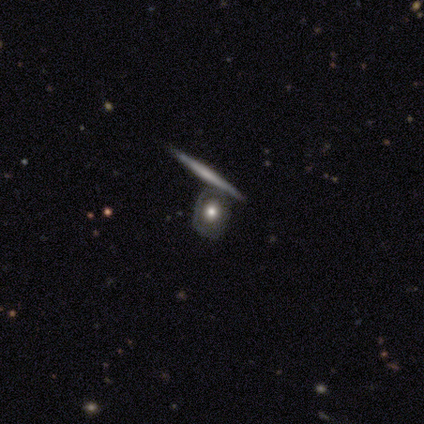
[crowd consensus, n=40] featured or disk 75%, smooth 18%, star or artifact 8%. Down the decision tree: edge-on disk — yes (50%, tied with no); edge-on bulge — none (80%); merging — none (51%).